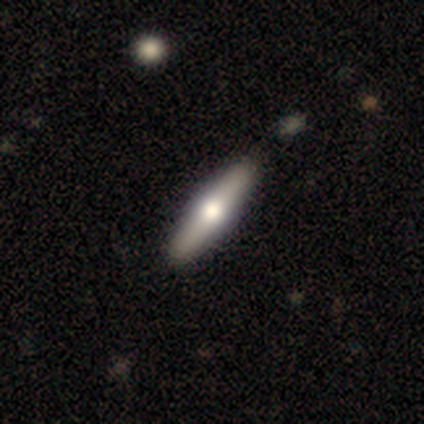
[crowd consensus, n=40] Q: Smooth or featured?
A: featured or disk (55%); runner-up: smooth (38%)
Q: Edge-on disk?
A: yes (91%); runner-up: no (9%)
Q: Edge-on bulge?
A: rounded (90%); runner-up: none (10%)
Q: Merging?
A: none (68%); runner-up: minor disturbance (5%)